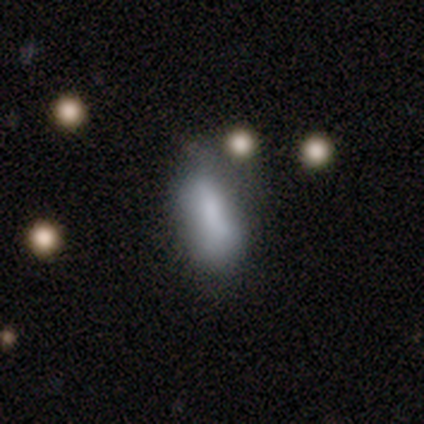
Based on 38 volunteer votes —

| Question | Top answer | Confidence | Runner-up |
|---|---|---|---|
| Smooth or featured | smooth | 76% | featured or disk (16%) |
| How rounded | in between | 79% | cigar-shaped (21%) |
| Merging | none | 34% | tied: minor disturbance (34%) |